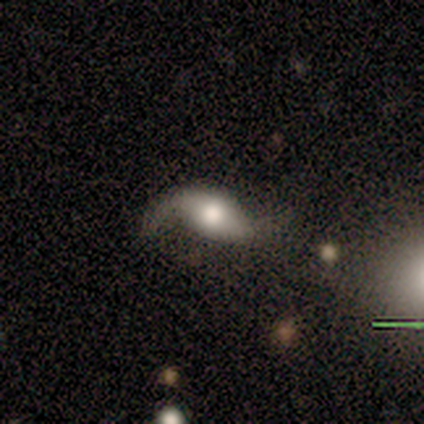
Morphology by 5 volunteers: Q: Smooth or featured?
A: featured or disk (80%); runner-up: smooth (20%)
Q: Edge-on disk?
A: no (100%)
Q: Bar?
A: no (50%); runner-up: strong (25%)
Q: Spiral arms?
A: yes (100%)
Q: Spiral winding?
A: loose (100%)
Q: Spiral arm count?
A: 2 (100%)
Q: Bulge size?
A: large (50%); tied with: moderate (50%)
Q: Merging?
A: none (80%); runner-up: minor disturbance (20%)